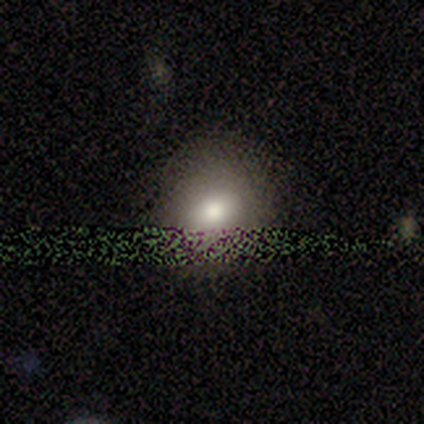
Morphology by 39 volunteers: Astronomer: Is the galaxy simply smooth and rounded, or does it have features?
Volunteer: smooth — 64%.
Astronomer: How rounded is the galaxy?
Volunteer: round — 68%.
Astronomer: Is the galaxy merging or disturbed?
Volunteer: none — 52%.